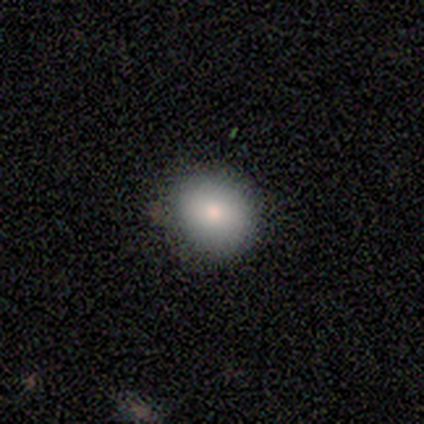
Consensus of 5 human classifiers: smooth 80%, featured or disk 20%, star or artifact 0%. Down the decision tree: how rounded — round (50%, tied with in between); merging — none (100%).